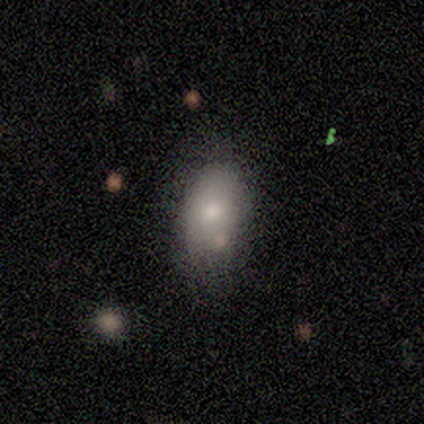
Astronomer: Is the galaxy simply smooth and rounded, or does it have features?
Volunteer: smooth — 88%.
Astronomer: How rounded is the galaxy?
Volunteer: in between — 86%.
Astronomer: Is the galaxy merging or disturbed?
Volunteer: none — 62%.